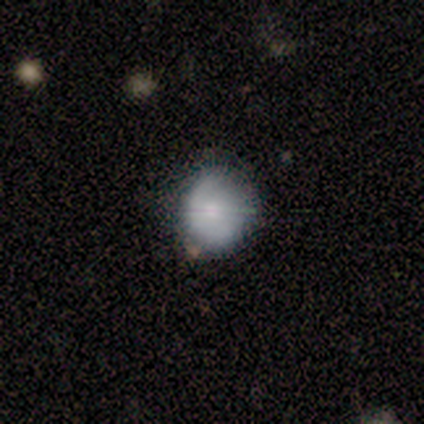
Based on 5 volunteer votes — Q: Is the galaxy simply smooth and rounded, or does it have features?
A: smooth — 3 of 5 (60%).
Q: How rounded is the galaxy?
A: round — 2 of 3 (67%).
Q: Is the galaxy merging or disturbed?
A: none — 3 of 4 (75%).